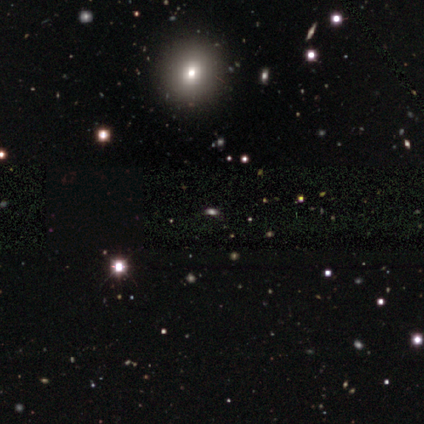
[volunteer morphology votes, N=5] smooth-or-featured: smooth: 80% | star or artifact: 20% | featured or disk: 0%
  how-rounded: round: 75% | cigar-shaped: 25% | in between: 0%
  merging: none: 100% | minor disturbance: 0% | major disturbance: 0% | merger: 0%